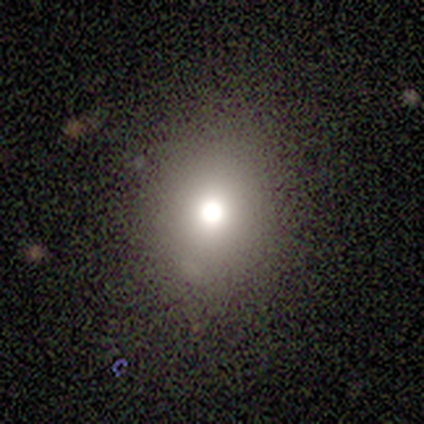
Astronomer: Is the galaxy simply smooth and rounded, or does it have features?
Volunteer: featured or disk — 67%.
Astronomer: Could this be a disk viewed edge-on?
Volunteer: no — 100%.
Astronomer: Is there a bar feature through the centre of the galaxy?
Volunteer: no — 100%.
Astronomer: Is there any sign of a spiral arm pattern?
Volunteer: no — 100%.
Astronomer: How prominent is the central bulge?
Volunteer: dominant — 50%, tied with moderate at 50%.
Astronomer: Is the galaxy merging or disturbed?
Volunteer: none — 100%.